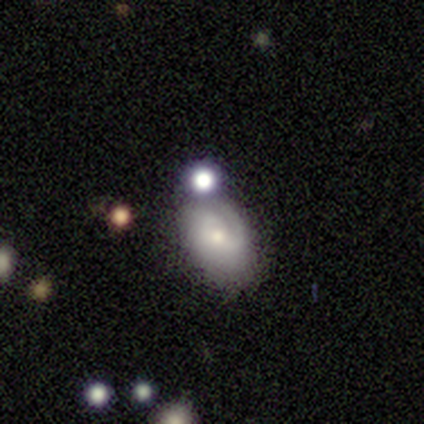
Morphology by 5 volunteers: type=featured or disk (60%); edge-on=no (100%); bar=no (100%); spiral arms=yes (100%); winding=medium (67%); arm count=2 (100%); bulge=small (67%); merging=none (60%).